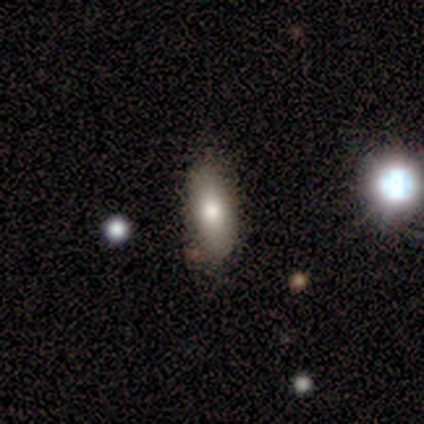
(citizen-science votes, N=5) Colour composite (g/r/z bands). It shows a smooth galaxy with no disk features (80%) that is in between round and cigar-shaped (100%). Merging: none (75%).